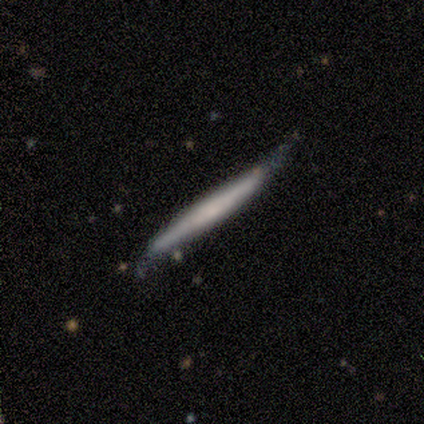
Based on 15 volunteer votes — Smooth or featured: featured or disk — 53% (smooth — 40%)
Edge-on disk: yes — 100%
Edge-on bulge: none — 75% (rounded — 25%)
Merging: none — 50% (tied with minor disturbance — 50%)